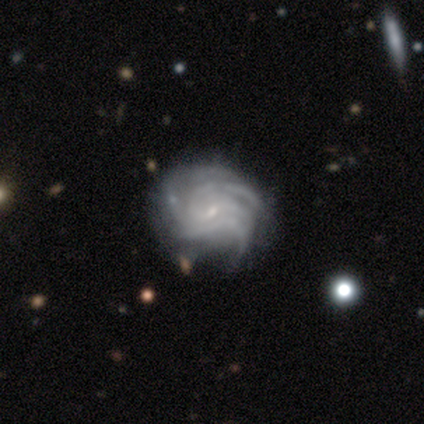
Smooth or featured? featured or disk (75%)
Edge-on disk? no (100%)
Bar? no (67%)
Spiral arms? yes (100%)
Spiral winding? tight (67%)
Spiral arm count? can't tell (67%)
Bulge size? small (100%)
Merging? major disturbance (50%)